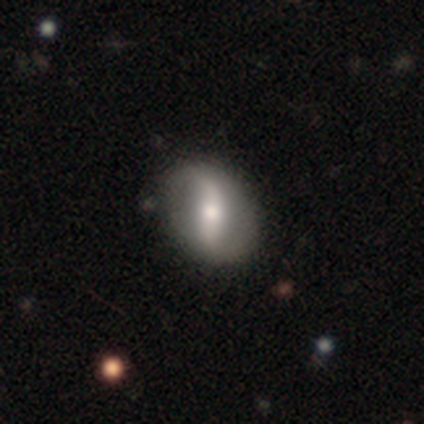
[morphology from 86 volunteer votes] Smooth or featured? featured or disk (65%)
Edge-on disk? no (89%)
Bar? weak (44%)
Spiral arms? yes (68%)
Spiral winding? loose (68%)
Spiral arm count? 2 (85%)
Bulge size? moderate (70%)
Merging? none (78%)